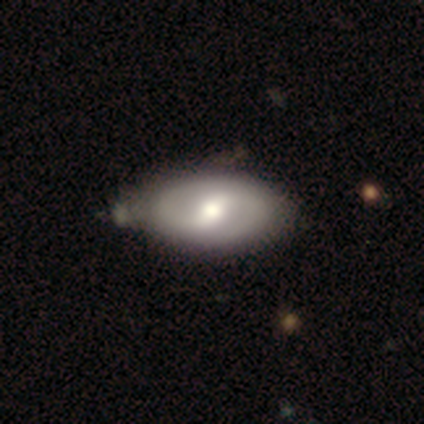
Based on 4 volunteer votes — A featured or disk galaxy (100%) with a weak bar (100%), 2 (100%) medium (100%) spiral arms (100%) and a moderate central bulge (100%). Merging: none (75%).